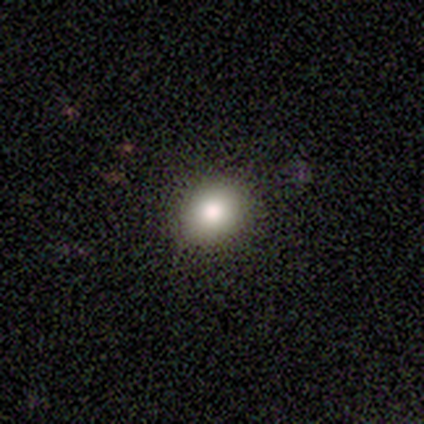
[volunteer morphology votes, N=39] Volunteers were most divided on "how rounded": round: 56%, in between: 44%, cigar-shaped: 0%. More confident: merging — none (79%); smooth or featured — smooth (69%).